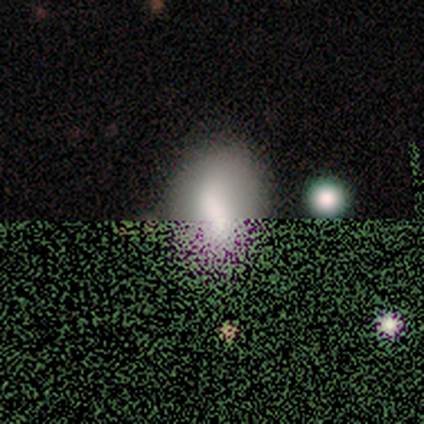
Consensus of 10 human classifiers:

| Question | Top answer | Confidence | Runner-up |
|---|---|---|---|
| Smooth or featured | smooth | 70% | star or artifact (30%) |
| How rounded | in between | 86% | cigar-shaped (14%) |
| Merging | none | 86% | minor disturbance (14%) |